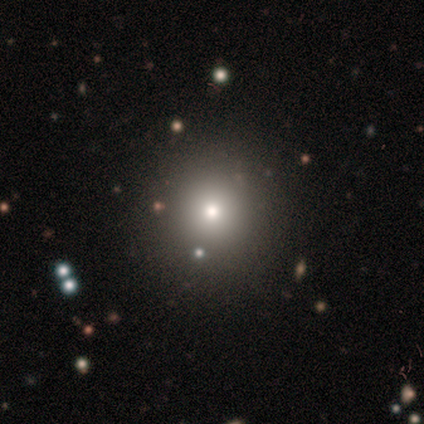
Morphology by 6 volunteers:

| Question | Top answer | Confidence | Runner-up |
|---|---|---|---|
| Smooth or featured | smooth | 67% | star or artifact (33%) |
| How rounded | round | 100% | — |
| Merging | none | 100% | — |